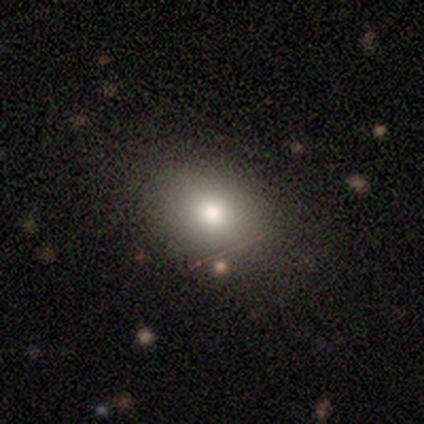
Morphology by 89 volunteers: type=smooth (72%); roundness=in between (66%); merging=none (75%).